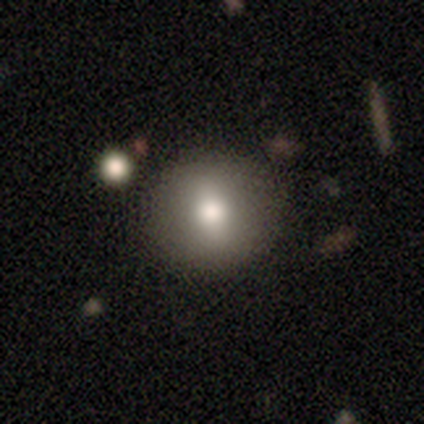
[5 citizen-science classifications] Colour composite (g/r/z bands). It shows a smooth galaxy with no disk features (80%) that is round (75%). Merging: none (80%).